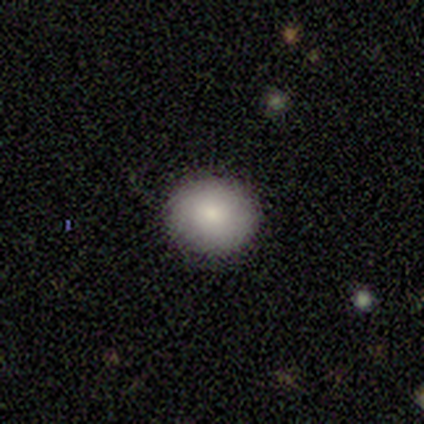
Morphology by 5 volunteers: Smooth or featured?
  - smooth: 100% *
  - featured or disk: 0%
  - star or artifact: 0%
How rounded?
  - in between: 60% *
  - round: 40%
  - cigar-shaped: 0%
Merging?
  - none: 100% *
  - minor disturbance: 0%
  - major disturbance: 0%
  - merger: 0%